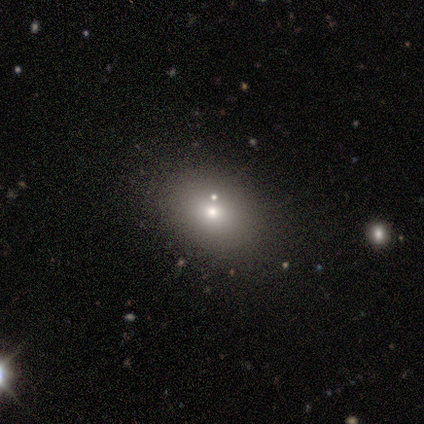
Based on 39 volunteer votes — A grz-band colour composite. It shows a smooth galaxy with no disk features (64%) that is in between round and cigar-shaped (72%). Merging: none (73%).